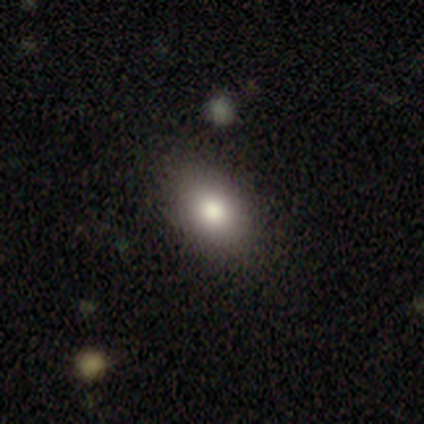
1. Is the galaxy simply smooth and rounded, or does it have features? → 60% smooth, 20% featured or disk, 20% star or artifact.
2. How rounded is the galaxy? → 100% in between, 0% round, 0% cigar-shaped.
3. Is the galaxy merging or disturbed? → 100% none, 0% minor disturbance, 0% major disturbance, 0% merger.